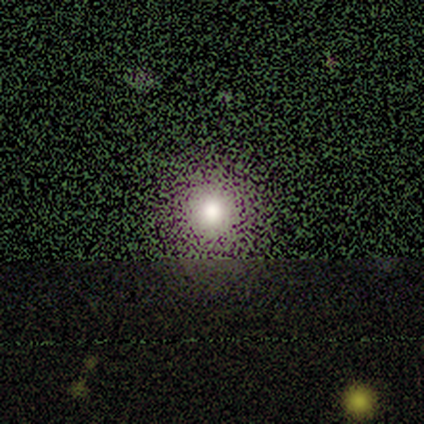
Overall: star or artifact (60%; smooth 40%).